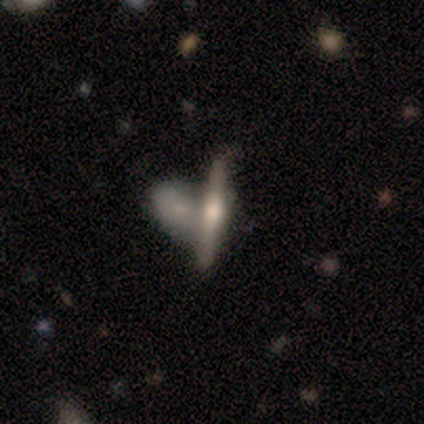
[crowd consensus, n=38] smooth-or-featured: featured or disk: 71% | smooth: 18% | star or artifact: 11%
  disk-edge-on: yes: 89% | no: 11%
    edge-on-bulge: rounded: 79% | boxy: 21% | none: 0%
  merging: merger: 68% | none: 24% | minor disturbance: 9% | major disturbance: 0%